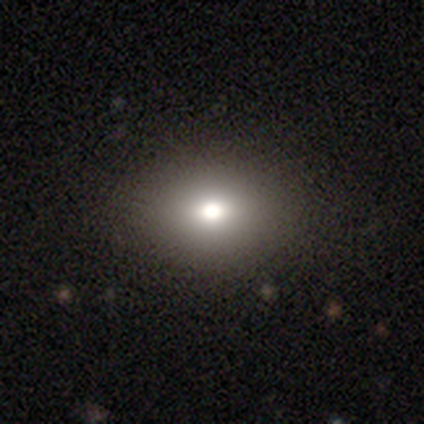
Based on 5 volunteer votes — smooth_or_featured: smooth (p=1.00)
how_rounded: in between (p=0.60) [alt: round p=0.40]
merging: none (p=1.00)